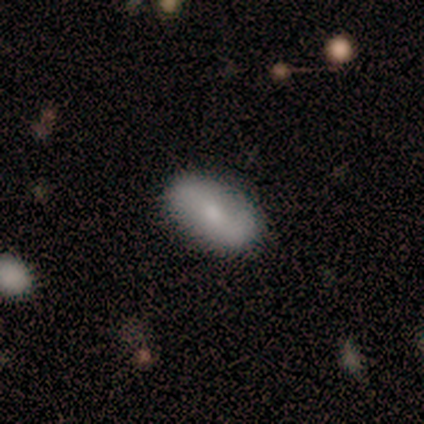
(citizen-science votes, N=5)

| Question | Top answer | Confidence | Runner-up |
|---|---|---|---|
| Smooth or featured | smooth | 80% | featured or disk (20%) |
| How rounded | in between | 100% | — |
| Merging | none | 100% | — |